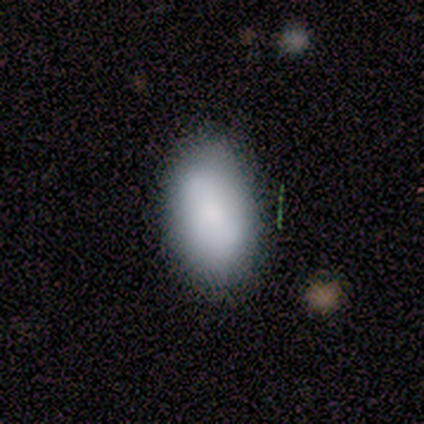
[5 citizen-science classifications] Q: Smooth or featured?
A: smooth (80%); runner-up: featured or disk (20%)
Q: How rounded?
A: in between (75%); runner-up: round (25%)
Q: Merging?
A: none (100%)